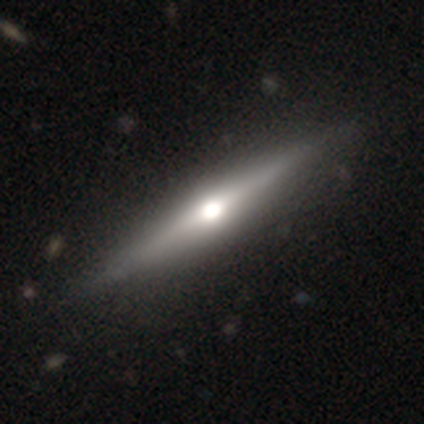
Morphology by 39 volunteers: smooth_or_featured: featured or disk (p=0.64) [alt: smooth p=0.31]
disk_edge_on: yes (p=1.00)
edge_on_bulge: rounded (p=0.92) [alt: boxy p=0.04]
merging: none (p=0.49) [alt: minor disturbance p=0.03]